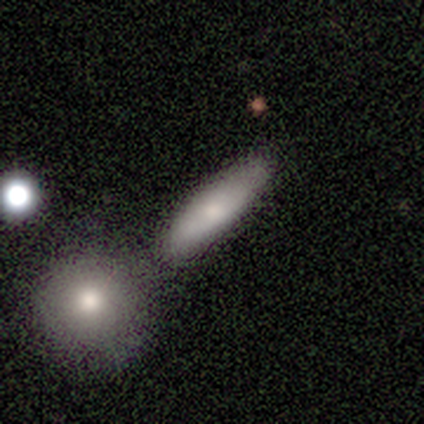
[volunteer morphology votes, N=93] Smooth or featured? smooth (72%)
How rounded? cigar-shaped (67%)
Merging? none (56%)